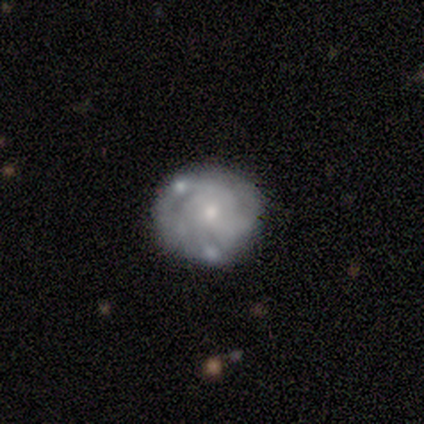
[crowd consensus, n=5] featured or disk 60%, smooth 20%, star or artifact 20%. Down the decision tree: edge-on disk — no (100%); bar — no (100%); spiral arms — no (67%); bulge size — small (100%); merging — none (75%).